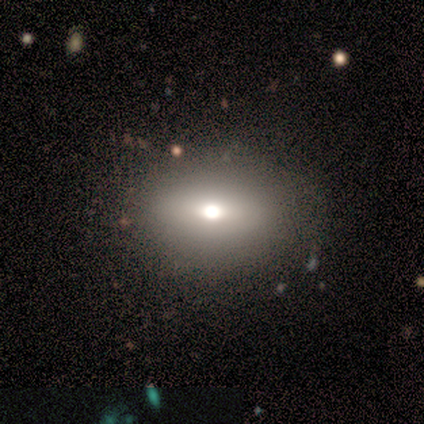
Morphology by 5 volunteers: A smooth galaxy with no disk features (60%) that is in between round and cigar-shaped (67%). Merging: none (75%).